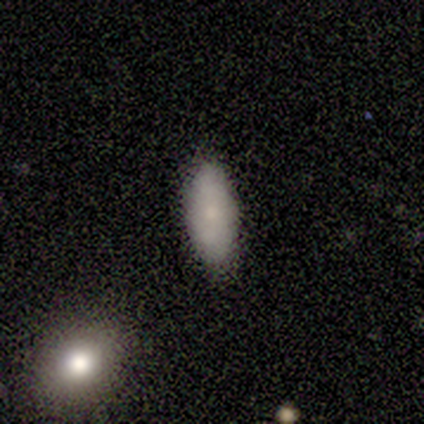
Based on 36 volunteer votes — Overall: smooth (81%). How rounded: in between (79%). Merging: none (94%).